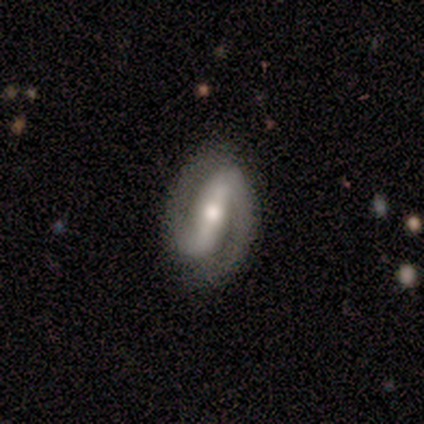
Smooth or featured? featured or disk (60%)
Edge-on disk? no (100%)
Bar? strong (100%)
Spiral arms? yes (100%)
Spiral winding? loose (67%)
Spiral arm count? 2 (100%)
Bulge size? large (33%, tied with moderate and small)
Merging? none (50%, tied with minor disturbance)